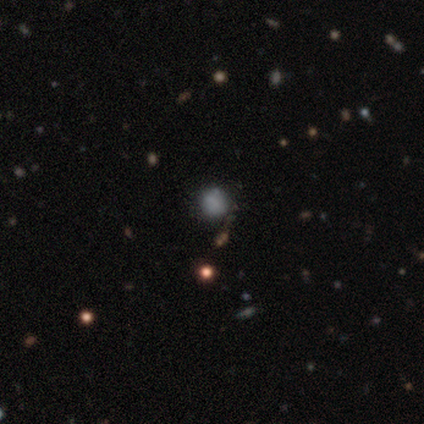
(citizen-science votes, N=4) smooth 75%, featured or disk 25%, star or artifact 0%. Down the decision tree: how rounded — round (67%); merging — none (100%).